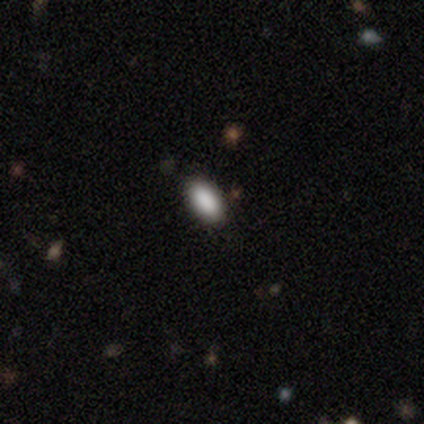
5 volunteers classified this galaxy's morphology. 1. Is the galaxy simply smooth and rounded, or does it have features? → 100% smooth, 0% featured or disk, 0% star or artifact.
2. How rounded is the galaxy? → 80% in between, 20% round, 0% cigar-shaped.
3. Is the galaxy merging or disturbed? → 100% none, 0% minor disturbance, 0% major disturbance, 0% merger.